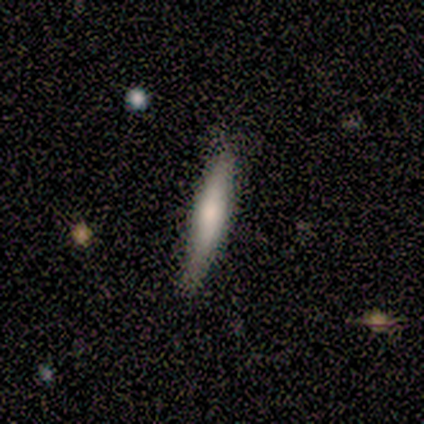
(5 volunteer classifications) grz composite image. It shows a featured or disk galaxy (60%) with no bar (100%), no spiral arms (100%) and a moderate central bulge (50%, tied with small). Merging: none (100%).